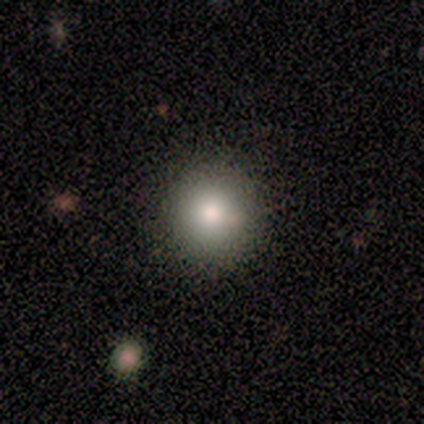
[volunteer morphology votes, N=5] smooth-or-featured: smooth: 100% | featured or disk: 0% | star or artifact: 0%
  how-rounded: round: 100% | in between: 0% | cigar-shaped: 0%
  merging: none: 100% | minor disturbance: 0% | major disturbance: 0% | merger: 0%